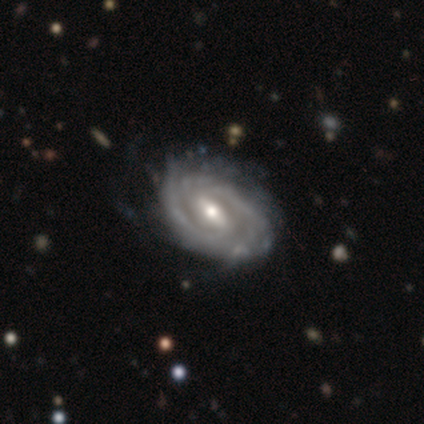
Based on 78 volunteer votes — Smooth or featured? featured or disk (96%)
Edge-on disk? no (95%)
Bar? weak (46%)
Spiral arms? yes (97%)
Spiral winding? tight (67%)
Spiral arm count? 2 (61%)
Bulge size? moderate (63%)
Merging? none (35%)